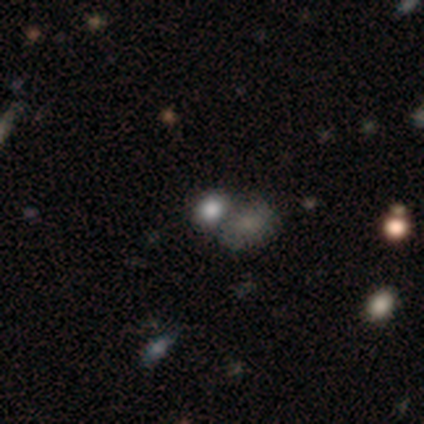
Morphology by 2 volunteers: Smooth or featured? smooth (100%)
How rounded? round (50%, tied with in between)
Merging? none (50%, tied with merger)